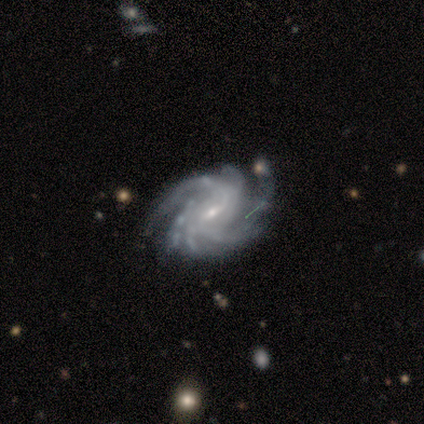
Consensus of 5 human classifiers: Volunteers were most divided on "bar": no: 60%, weak: 40%, strong: 0%. More confident: smooth or featured — featured or disk (100%); edge-on disk — no (100%); spiral arms — yes (100%); spiral winding — tight (100%); spiral arm count — more than 4 (80%); bulge size — small (80%); merging — none (80%).